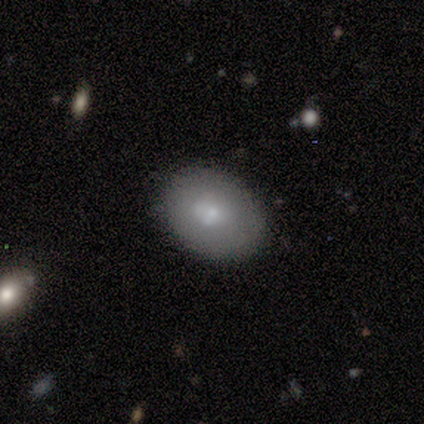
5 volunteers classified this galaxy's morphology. A smooth galaxy with no disk features (100%) that is in between round and cigar-shaped (100%). Merging: none (80%).